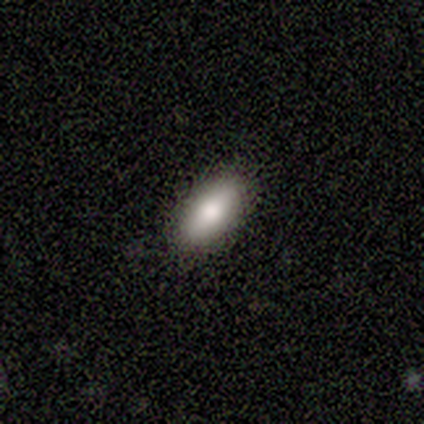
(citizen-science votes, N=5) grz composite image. It shows a smooth galaxy with no disk features (80%) that is in between round and cigar-shaped (50%, tied with cigar-shaped). Merging: none (100%).